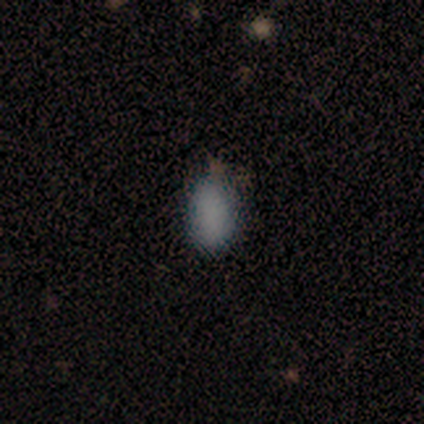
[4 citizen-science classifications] A smooth galaxy with no disk features (75%) that is in between round and cigar-shaped (100%).

Vote fractions:
- Smooth or featured? smooth: 75% / featured or disk: 25% / star or artifact: 0%
- How rounded? in between: 100% / round: 0% / cigar-shaped: 0%
- Merging? none: 75% / minor disturbance: 25% / major disturbance: 0% / merger: 0%